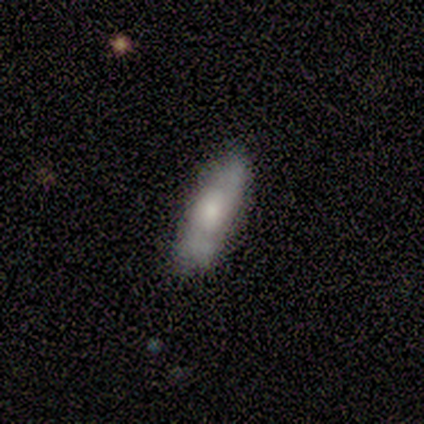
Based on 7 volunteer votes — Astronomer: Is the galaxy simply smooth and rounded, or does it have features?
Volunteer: smooth — 57%.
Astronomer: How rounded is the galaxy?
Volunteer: cigar-shaped — 75%.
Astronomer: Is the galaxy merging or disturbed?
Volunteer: none — 50% (runner-up: minor disturbance, 33%).